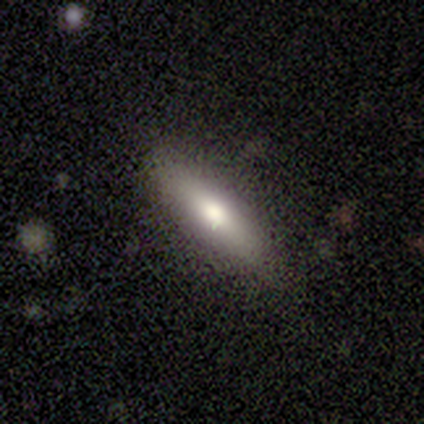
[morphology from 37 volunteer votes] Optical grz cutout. It shows a smooth galaxy with no disk features (65%) that is cigar-shaped (71%). Merging: none (89%).